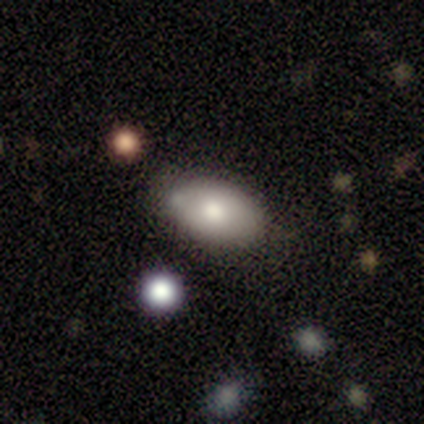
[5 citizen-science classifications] smooth_or_featured: smooth (p=0.80) [alt: featured or disk p=0.20]
how_rounded: in between (p=0.75) [alt: round p=0.25]
merging: none (p=0.60) [alt: minor disturbance p=0.20]